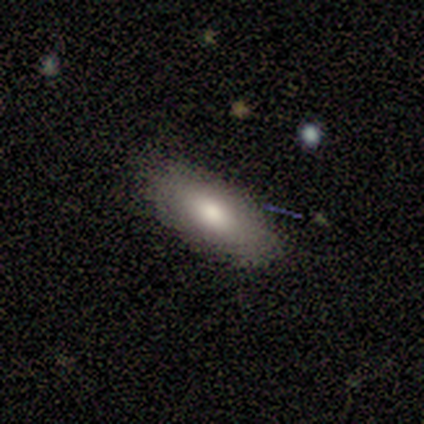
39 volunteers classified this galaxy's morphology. Overall: smooth (79%). How rounded: in between (90%). Merging: none (84%).